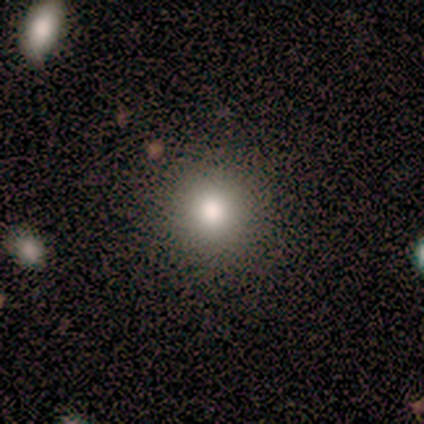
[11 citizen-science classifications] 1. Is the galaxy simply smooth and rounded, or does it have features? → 91% smooth, 9% star or artifact, 0% featured or disk.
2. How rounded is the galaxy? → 100% round, 0% in between, 0% cigar-shaped.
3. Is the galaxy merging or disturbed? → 100% none, 0% minor disturbance, 0% major disturbance, 0% merger.